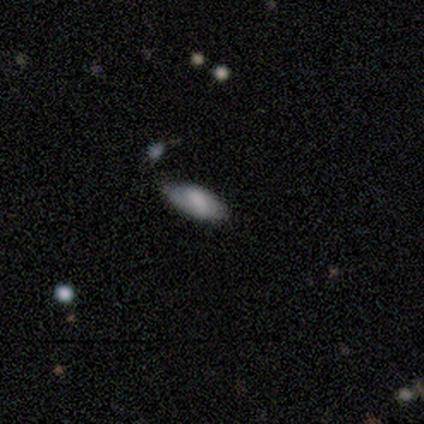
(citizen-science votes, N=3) Overall: smooth (67%; featured or disk 33%). How rounded: in between (100%). Merging: none (100%).